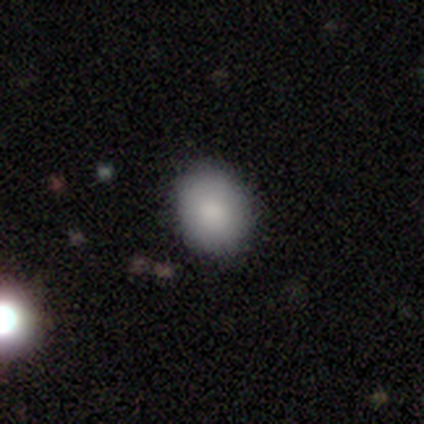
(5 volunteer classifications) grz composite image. It shows a smooth galaxy with no disk features (100%) that is in between round and cigar-shaped (80%). Merging: none (80%).